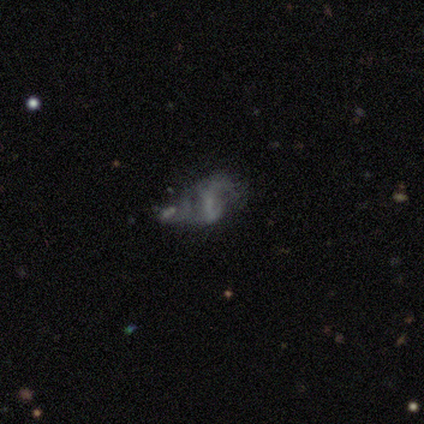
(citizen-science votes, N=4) This appears to be a featured or disk galaxy (75%) with a weak bar (67%), 2 (100%) medium (67%) spiral arms (100%) and a small central bulge (67%). Merging: minor disturbance (33%, tied with major disturbance and merger).